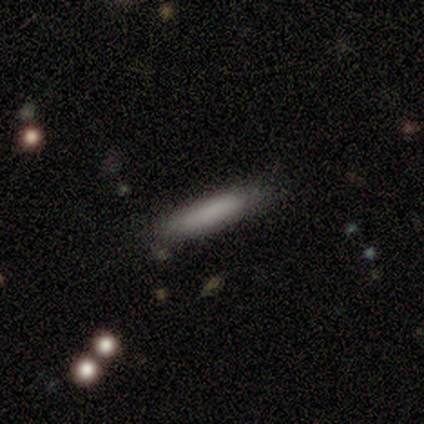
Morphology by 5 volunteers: A smooth galaxy with no disk features (100%) that is cigar-shaped (100%). Merging: none (100%).